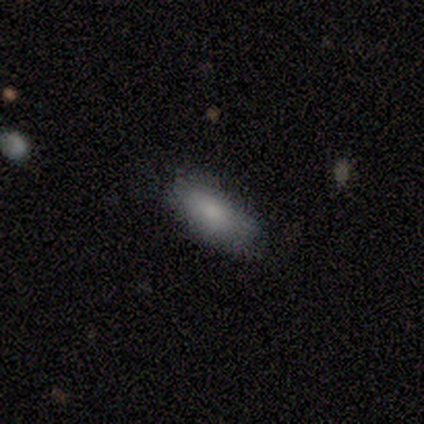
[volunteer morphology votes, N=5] Smooth or featured? smooth (60%)
How rounded? cigar-shaped (67%)
Merging? none (100%)